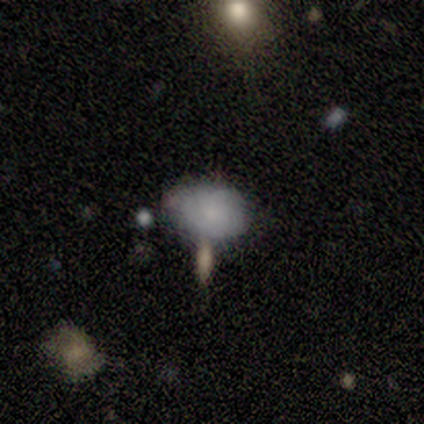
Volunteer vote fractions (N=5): smooth 60%, featured or disk 20%, star or artifact 20%. Down the decision tree: how rounded — in between (67%); merging — none (75%).